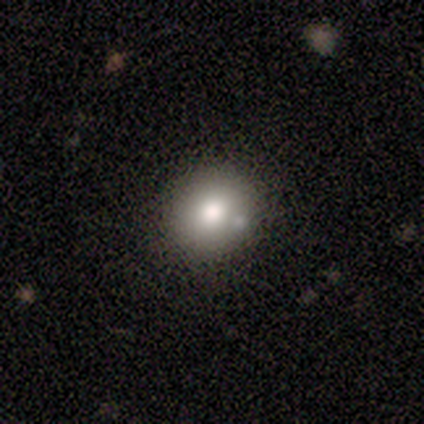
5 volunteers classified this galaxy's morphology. Overall: smooth (100%). How rounded: round (60%; in between 40%). Merging: none (100%).